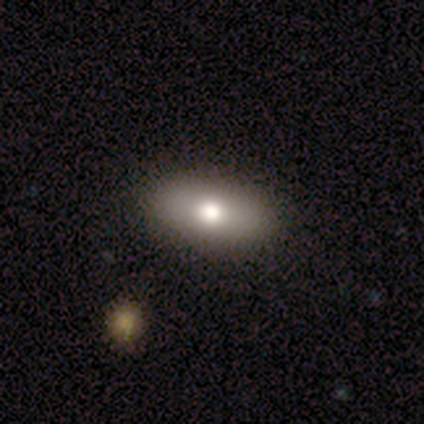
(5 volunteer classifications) Smooth or featured?
  - smooth: 80% *
  - featured or disk: 20%
  - star or artifact: 0%
How rounded?
  - in between: 100% *
  - round: 0%
  - cigar-shaped: 0%
Merging?
  - none: 100% *
  - minor disturbance: 0%
  - major disturbance: 0%
  - merger: 0%